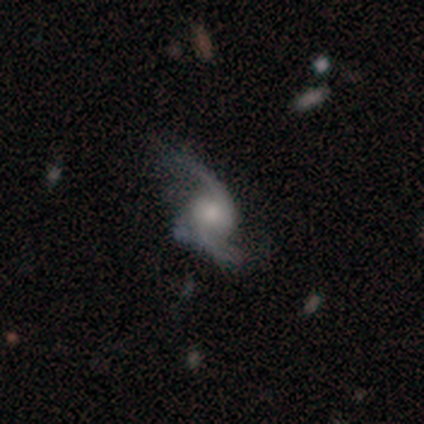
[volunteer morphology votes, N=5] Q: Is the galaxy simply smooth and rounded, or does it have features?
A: featured or disk — 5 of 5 (100%).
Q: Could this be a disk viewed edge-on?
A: no — 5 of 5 (100%).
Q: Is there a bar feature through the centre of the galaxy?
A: no — 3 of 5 (60%).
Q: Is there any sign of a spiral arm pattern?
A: yes — 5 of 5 (100%).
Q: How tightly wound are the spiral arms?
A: loose — 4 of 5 (80%).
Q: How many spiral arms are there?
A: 2 — 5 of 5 (100%).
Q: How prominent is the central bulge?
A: moderate — 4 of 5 (80%).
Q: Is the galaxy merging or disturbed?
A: minor disturbance — 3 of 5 (60%).